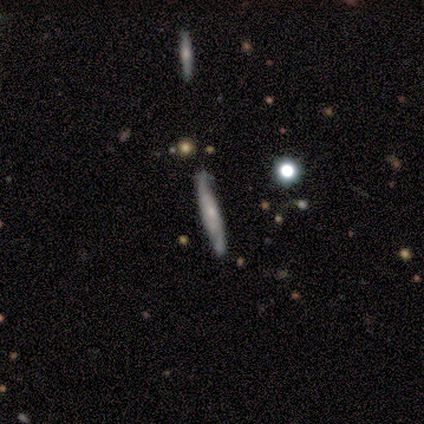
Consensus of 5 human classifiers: Morphology: type=smooth (60%); roundness=cigar-shaped (100%); merging=none (80%).